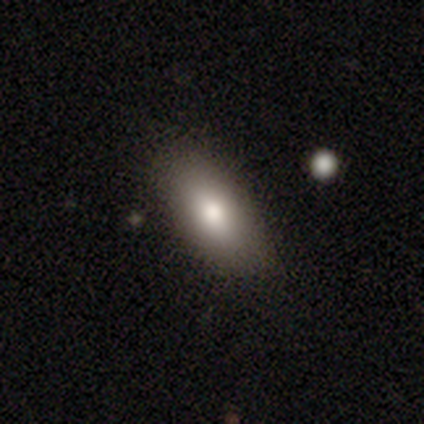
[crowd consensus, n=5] smooth 100%, featured or disk 0%, star or artifact 0%. Down the decision tree: how rounded — in between (100%); merging — none (80%).